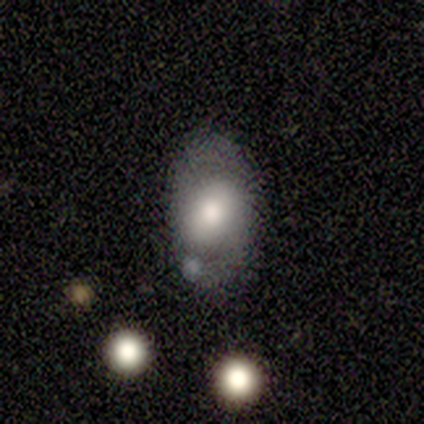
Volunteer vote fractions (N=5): smooth 40% (tied), featured or disk 40% (tied), star or artifact 20%. Down the decision tree: how rounded — in between (100%); merging — none (50%, tied with minor disturbance).